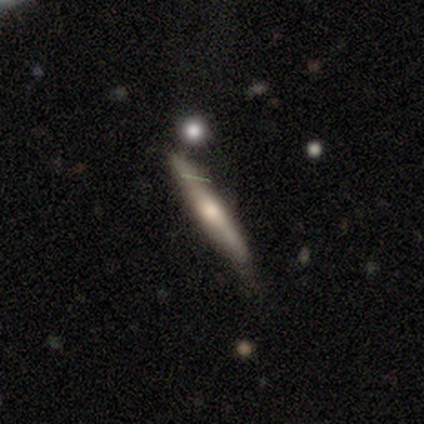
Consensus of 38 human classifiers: smooth-or-featured: featured or disk: 53% | smooth: 42% | star or artifact: 5%
  disk-edge-on: yes: 90% | no: 10%
    edge-on-bulge: rounded: 83% | none: 11% | boxy: 6%
  merging: none: 61% | minor disturbance: 33% | major disturbance: 6% | merger: 0%